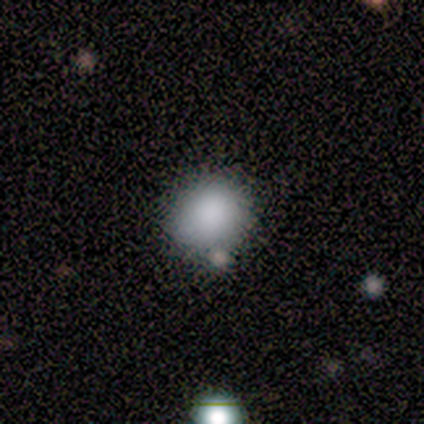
Smooth or featured? 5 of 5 (100%) said smooth. How rounded? 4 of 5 (80%) said round. Merging? 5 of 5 (100%) said none.